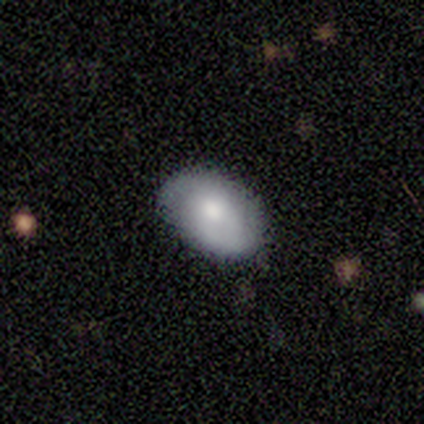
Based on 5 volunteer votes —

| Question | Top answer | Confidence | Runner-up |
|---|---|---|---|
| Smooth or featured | smooth | 60% | featured or disk (40%) |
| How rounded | in between | 100% | — |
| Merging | none | 80% | minor disturbance (20%) |